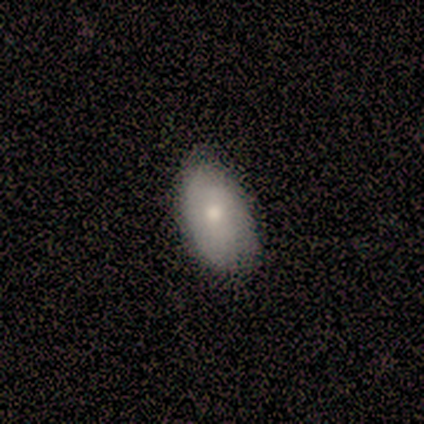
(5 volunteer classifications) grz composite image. It shows a smooth galaxy with no disk features (80%) that is in between round and cigar-shaped (100%). Merging: none (60%).